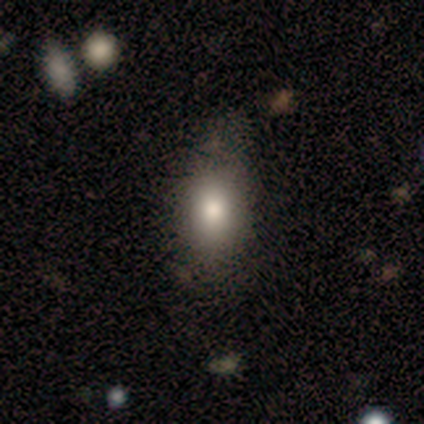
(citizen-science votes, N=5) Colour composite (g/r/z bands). It shows a smooth galaxy with no disk features (100%) that is in between round and cigar-shaped (60%). Merging: none (60%).